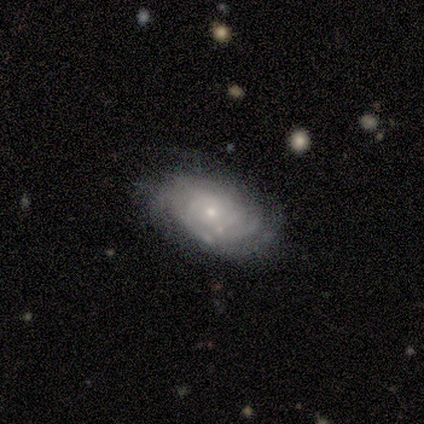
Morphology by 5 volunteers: type=featured or disk (100%); edge-on=no (80%); bar=no (100%); spiral arms=yes (50%, tied with no); winding=tight (50%, tied with loose); arm count=4 (50%, tied with can't tell); bulge=small (75%); merging=none (40%, tied with minor disturbance).